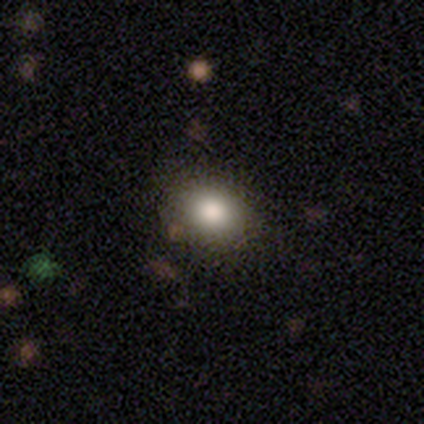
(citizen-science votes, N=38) A smooth galaxy with no disk features (79%) that is in between round and cigar-shaped (60%).

Vote fractions:
- Smooth or featured? smooth: 79% / star or artifact: 13% / featured or disk: 8%
- How rounded? in between: 60% / round: 40% / cigar-shaped: 0%
- Merging? none: 91% / minor disturbance: 9% / major disturbance: 0% / merger: 0%